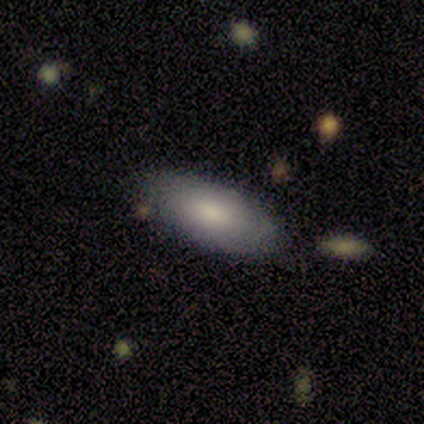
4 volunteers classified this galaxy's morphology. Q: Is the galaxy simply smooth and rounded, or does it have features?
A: smooth — 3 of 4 (75%).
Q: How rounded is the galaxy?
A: in between — 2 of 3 (67%).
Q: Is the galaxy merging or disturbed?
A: none — 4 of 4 (100%).